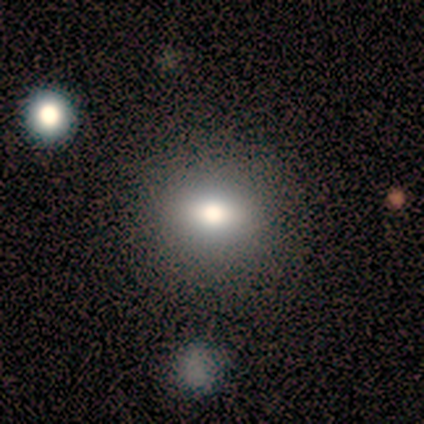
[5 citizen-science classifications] Q: Smooth or featured?
A: smooth (100%)
Q: How rounded?
A: round (60%); runner-up: in between (40%)
Q: Merging?
A: none (80%); runner-up: minor disturbance (20%)